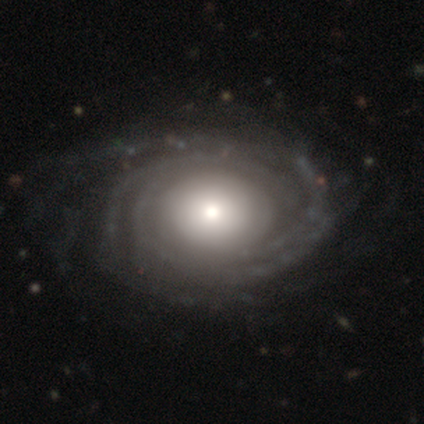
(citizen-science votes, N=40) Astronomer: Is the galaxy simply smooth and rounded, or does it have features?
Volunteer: featured or disk — 92%.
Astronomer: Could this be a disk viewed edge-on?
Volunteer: no — 95%.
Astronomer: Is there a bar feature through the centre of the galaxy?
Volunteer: no — 89%.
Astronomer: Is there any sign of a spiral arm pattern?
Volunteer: yes — 97%.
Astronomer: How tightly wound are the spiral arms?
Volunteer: tight — 68%.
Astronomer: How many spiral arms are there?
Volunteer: more than 4 — 35% (runner-up: can't tell, 26%).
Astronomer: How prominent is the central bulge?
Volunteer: moderate — 40% (runner-up: small, 26%).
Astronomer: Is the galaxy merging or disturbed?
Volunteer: none — 68%.